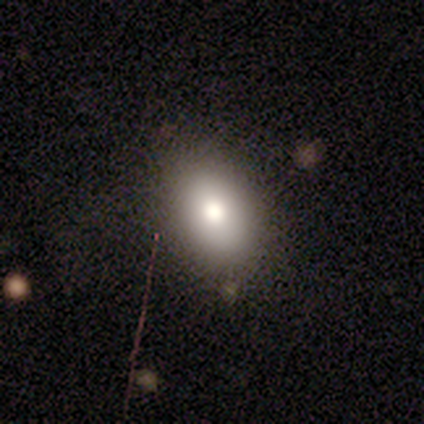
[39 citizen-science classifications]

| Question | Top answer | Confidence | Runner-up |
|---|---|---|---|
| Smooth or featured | smooth | 72% | featured or disk (18%) |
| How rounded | in between | 82% | round (14%) |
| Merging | none | 74% | minor disturbance (14%) |